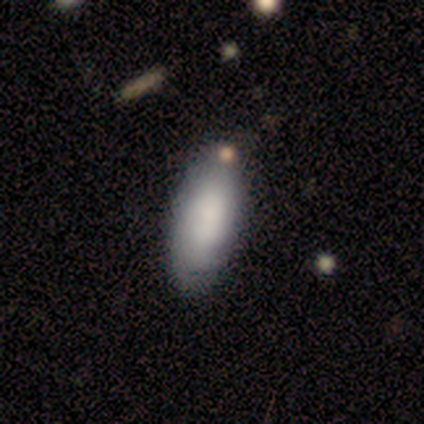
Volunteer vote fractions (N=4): Smooth or featured: smooth — 75% (featured or disk — 25%)
How rounded: in between — 100%
Merging: none — 75% (minor disturbance — 25%)